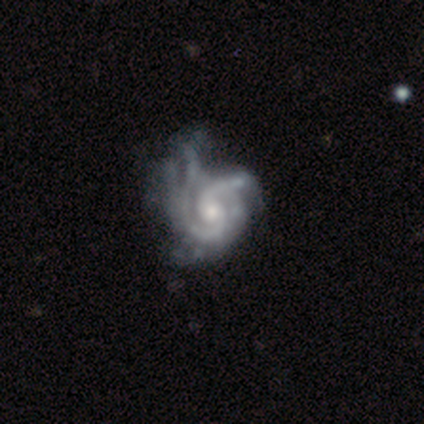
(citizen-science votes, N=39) A featured or disk galaxy (95%) with no bar (73%), 2 (51%) medium (46%) spiral arms (100%) and a moderate central bulge (51%). Merging: minor disturbance (29%).